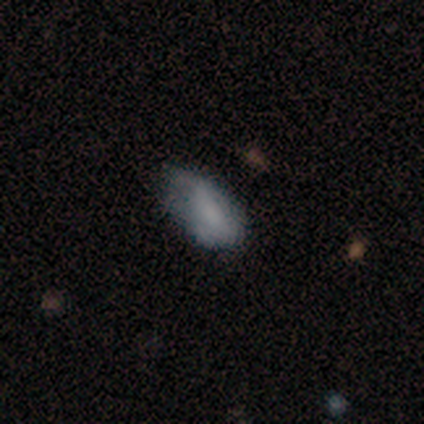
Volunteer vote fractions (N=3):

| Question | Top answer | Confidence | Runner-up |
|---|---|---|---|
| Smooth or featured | featured or disk | 67% | smooth (33%) |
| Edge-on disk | no | 100% | — |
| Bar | weak | 100% | — |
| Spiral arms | yes | 50% | tied: no (50%) |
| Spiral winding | loose | 100% | — |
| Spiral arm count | can't tell | 100% | — |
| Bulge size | moderate | 50% | tied: small (50%) |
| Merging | none | 33% | tied: minor disturbance (33%), major disturbance (33%) |